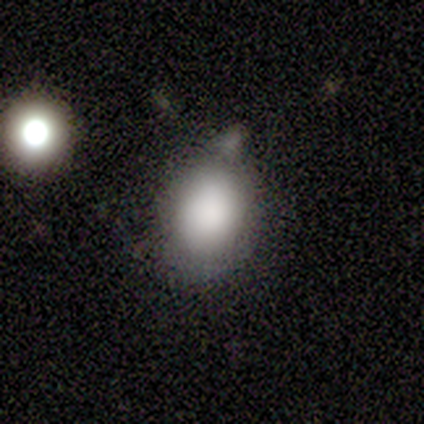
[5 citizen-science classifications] Smooth or featured: smooth — 80% (star or artifact — 20%)
How rounded: round — 50% (tied with in between — 50%)
Merging: none — 100%